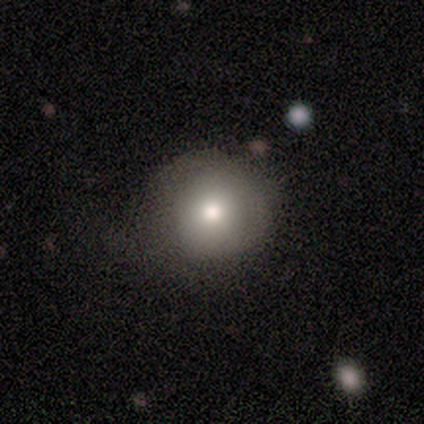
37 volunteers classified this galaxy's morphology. Smooth or featured?
  - smooth: 76% *
  - featured or disk: 19%
  - star or artifact: 5%
How rounded?
  - round: 96% *
  - in between: 4%
  - cigar-shaped: 0%
Merging?
  - none: 66% *
  - minor disturbance: 23%
  - major disturbance: 9%
  - merger: 3%